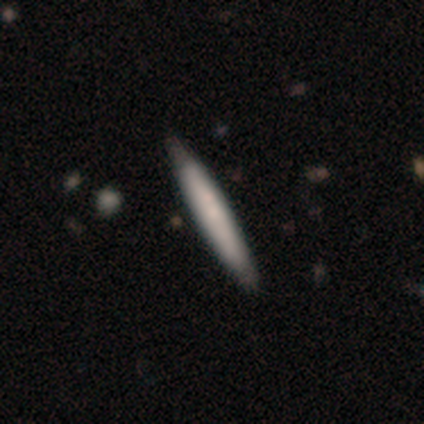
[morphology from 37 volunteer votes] Smooth or featured: smooth — 57% (featured or disk — 41%)
How rounded: cigar-shaped — 100%
Merging: none — 61% (merger — 8%)